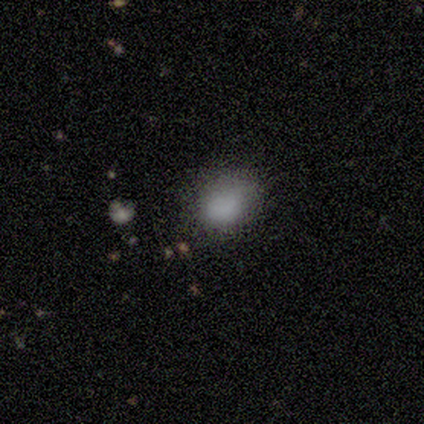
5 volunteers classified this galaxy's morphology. type=smooth (100%); roundness=in between (80%); merging=none (60%).